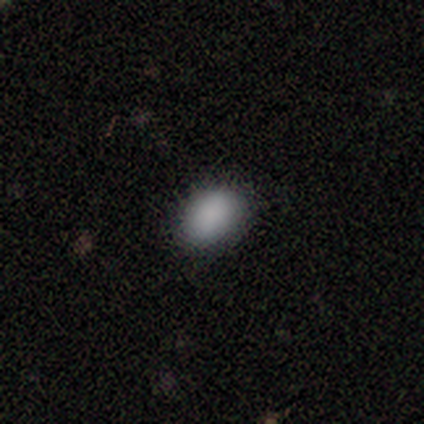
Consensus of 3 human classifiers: This appears to be a smooth galaxy with no disk features (67%) that is in between round and cigar-shaped (100%). Merging: none (50%, tied with minor disturbance).